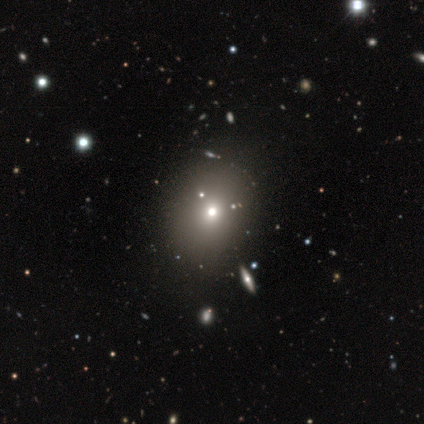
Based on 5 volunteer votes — Smooth or featured? 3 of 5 (60%) said star or artifact.